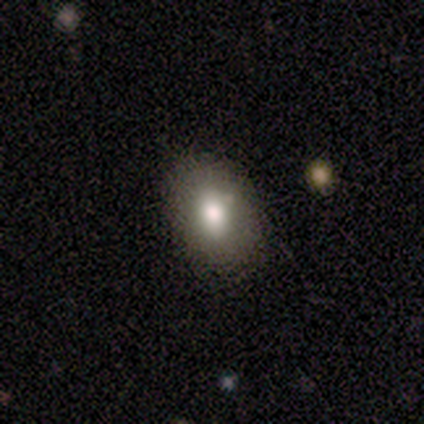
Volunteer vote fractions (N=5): This is likely a smooth galaxy (60%). How rounded: clearly in between (100%). Merging: likely none (75%).